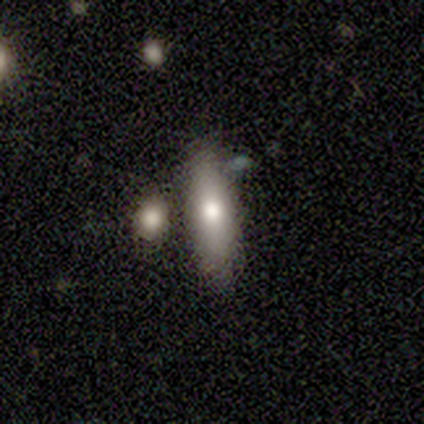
Q: Smooth or featured?
A: smooth (100%)
Q: How rounded?
A: in between (60%); runner-up: cigar-shaped (40%)
Q: Merging?
A: none (80%); runner-up: minor disturbance (20%)